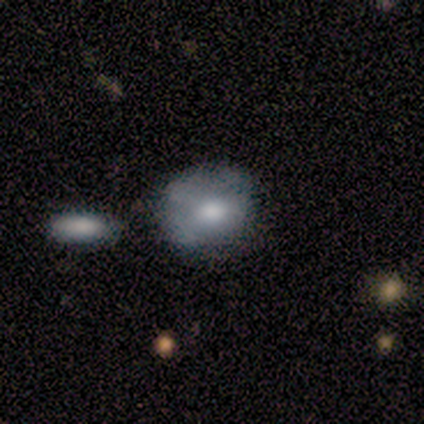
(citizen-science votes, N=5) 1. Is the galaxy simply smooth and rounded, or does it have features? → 80% smooth, 20% featured or disk, 0% star or artifact.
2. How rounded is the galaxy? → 75% round, 25% in between, 0% cigar-shaped.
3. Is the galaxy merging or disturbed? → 60% none, 20% minor disturbance, 20% major disturbance, 0% merger.